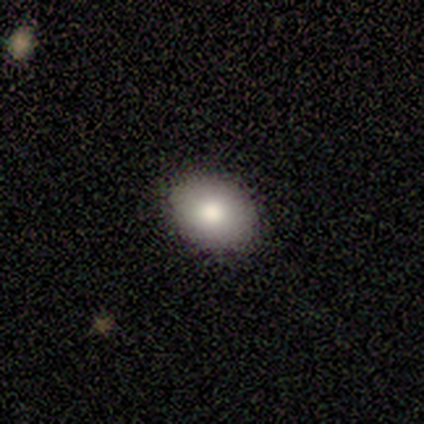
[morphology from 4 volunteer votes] Smooth or featured? 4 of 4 (100%) said smooth. How rounded? 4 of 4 (100%) said in between. Merging? 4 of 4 (100%) said none.